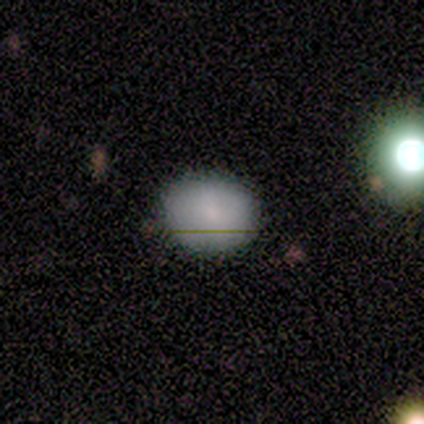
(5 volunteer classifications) This is clearly a smooth galaxy (100%). How rounded: clearly round (80%). Merging: clearly none (100%).